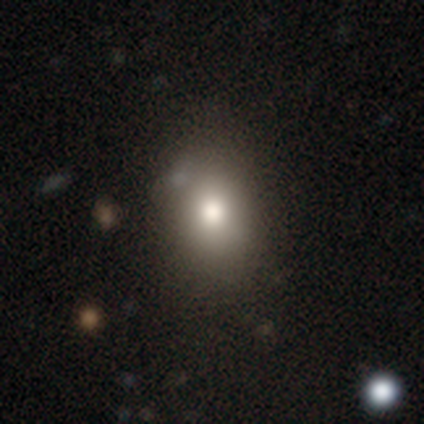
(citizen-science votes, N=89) smooth 75%, featured or disk 12%, star or artifact 12%. Down the decision tree: how rounded — in between (61%); merging — none (76%).